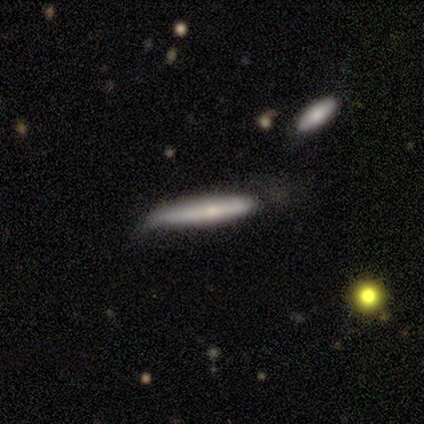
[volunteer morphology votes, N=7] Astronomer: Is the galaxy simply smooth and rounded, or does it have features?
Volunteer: smooth — 100%.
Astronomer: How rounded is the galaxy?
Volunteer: cigar-shaped — 100%.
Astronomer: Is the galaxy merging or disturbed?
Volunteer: none — 71%.